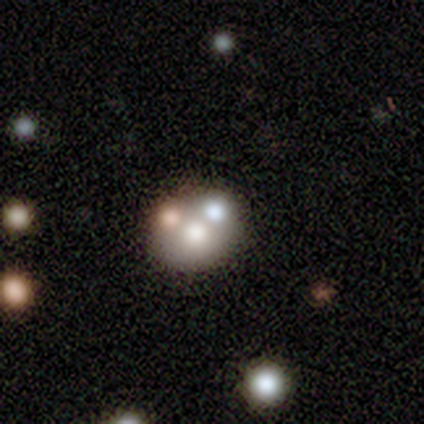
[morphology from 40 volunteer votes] Smooth or featured? smooth (52%)
How rounded? round (81%)
Merging? none (42%)